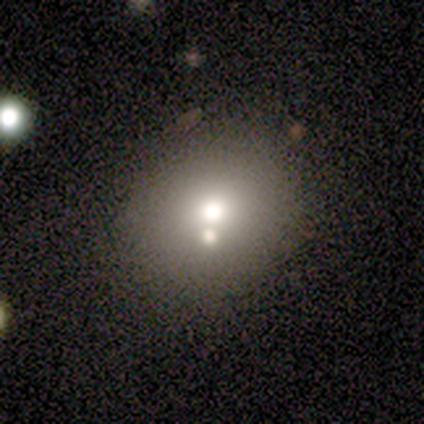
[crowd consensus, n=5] Smooth or featured?
  - smooth: 40% * (tied)
  - star or artifact: 40% * (tied)
  - featured or disk: 20%
How rounded?
  - round: 50% * (tied)
  - in between: 50% * (tied)
  - cigar-shaped: 0%
Merging?
  - none: 67% *
  - minor disturbance: 33%
  - major disturbance: 0%
  - merger: 0%